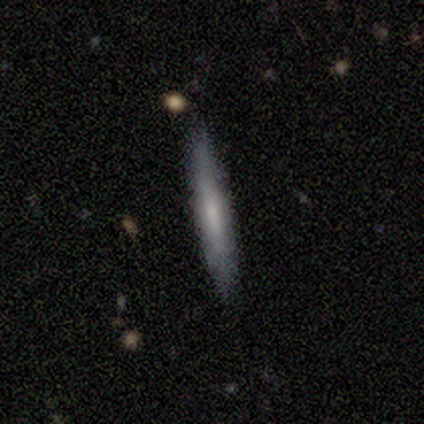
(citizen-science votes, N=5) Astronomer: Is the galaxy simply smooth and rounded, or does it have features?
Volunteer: smooth — 40%, tied with featured or disk at 40%.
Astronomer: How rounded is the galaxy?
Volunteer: cigar-shaped — 100%.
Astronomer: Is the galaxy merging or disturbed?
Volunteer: none — 100%.